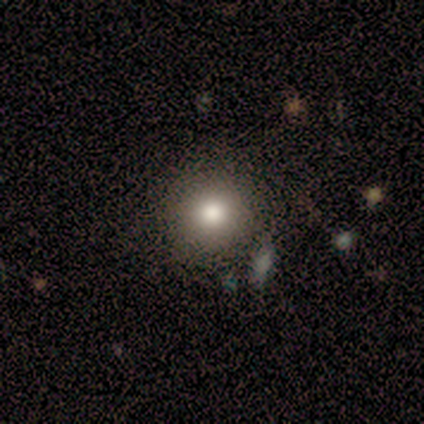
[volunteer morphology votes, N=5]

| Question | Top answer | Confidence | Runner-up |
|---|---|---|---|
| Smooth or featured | smooth | 80% | star or artifact (20%) |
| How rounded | round | 100% | — |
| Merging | minor disturbance | 50% | none (25%) |